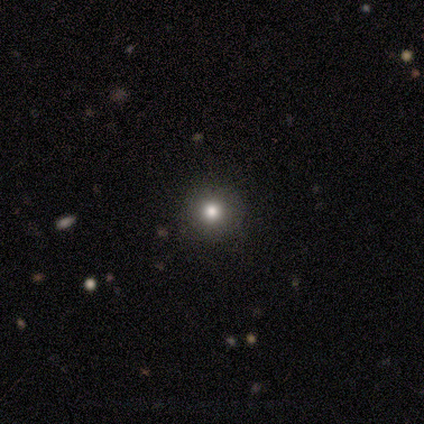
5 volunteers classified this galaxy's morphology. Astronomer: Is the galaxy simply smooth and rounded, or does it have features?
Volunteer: smooth — 80%.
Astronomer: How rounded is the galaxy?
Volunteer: round — 100%.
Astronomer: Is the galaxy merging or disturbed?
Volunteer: none — 100%.